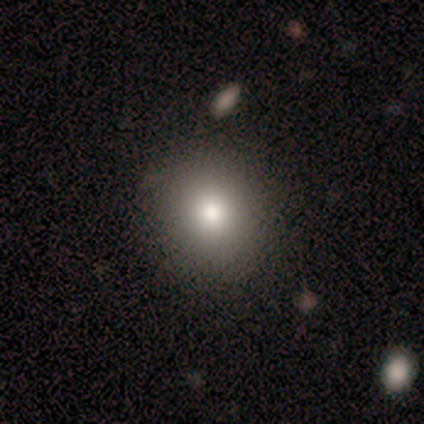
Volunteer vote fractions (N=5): Overall: smooth (100%). How rounded: round (80%). Merging: none (80%).